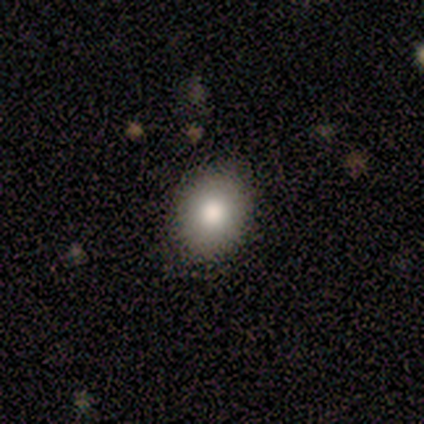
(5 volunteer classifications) Volunteers were most divided on "how rounded": round: 60%, in between: 40%, cigar-shaped: 0%. More confident: smooth or featured — smooth (100%); merging — none (100%).